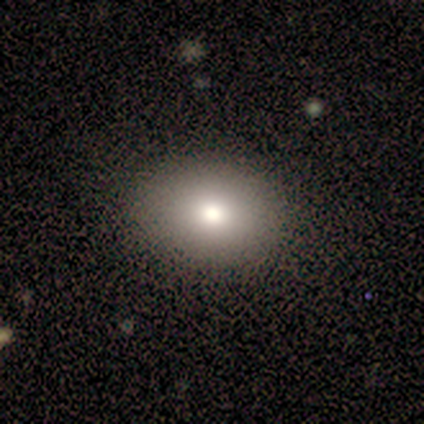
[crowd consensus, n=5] Smooth or featured?
  - smooth: 80% *
  - featured or disk: 20%
  - star or artifact: 0%
How rounded?
  - in between: 75% *
  - round: 25%
  - cigar-shaped: 0%
Merging?
  - none: 80% *
  - minor disturbance: 20%
  - major disturbance: 0%
  - merger: 0%